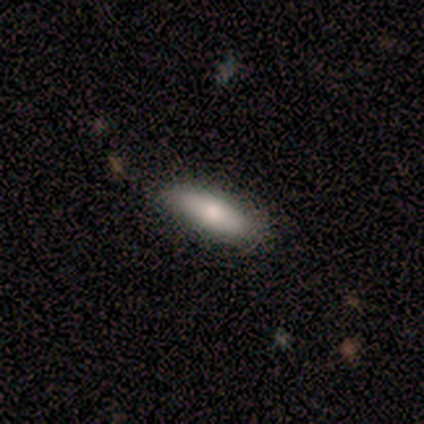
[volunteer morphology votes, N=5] A smooth galaxy with no disk features (60%) that is in between round and cigar-shaped (100%). Merging: none (100%).